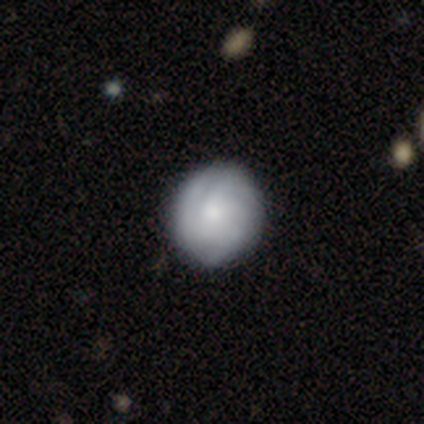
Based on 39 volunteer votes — featured or disk 56%, smooth 44%, star or artifact 0%. Down the decision tree: edge-on disk — no (100%); bar — no (100%); spiral arms — yes (95%); spiral arm count — 3 (43%, tied with can't tell); spiral winding — tight (48%, tied with medium); bulge size — moderate (45%); merging — none (54%).